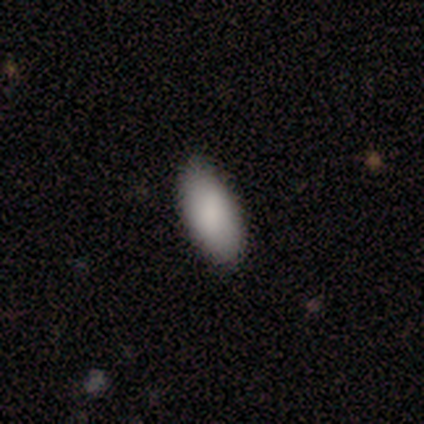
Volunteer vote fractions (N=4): Smooth or featured: smooth — 50% (featured or disk — 25%)
How rounded: in between — 100%
Merging: none — 67% (minor disturbance — 33%)